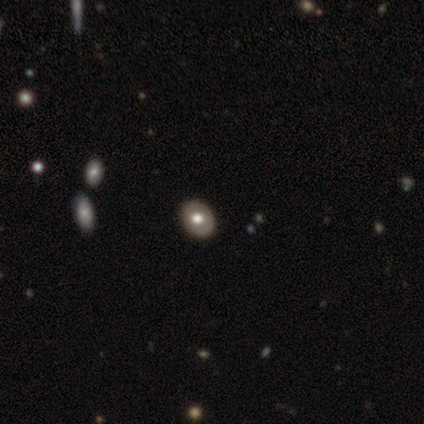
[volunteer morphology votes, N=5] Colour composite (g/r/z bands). It shows a smooth galaxy with no disk features (60%) that is in between round and cigar-shaped (100%). Merging: none (100%).